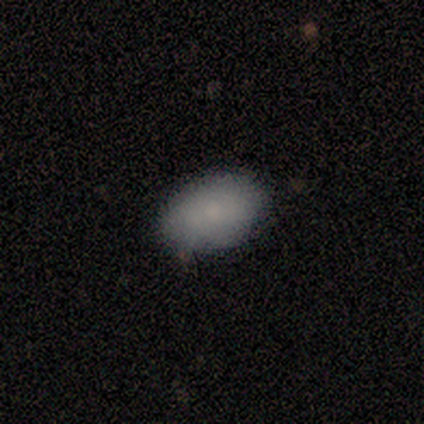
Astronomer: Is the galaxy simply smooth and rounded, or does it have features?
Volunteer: smooth — 100%.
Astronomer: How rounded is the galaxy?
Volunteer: in between — 100%.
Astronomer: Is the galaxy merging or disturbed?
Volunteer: none — 60% (runner-up: minor disturbance, 40%).